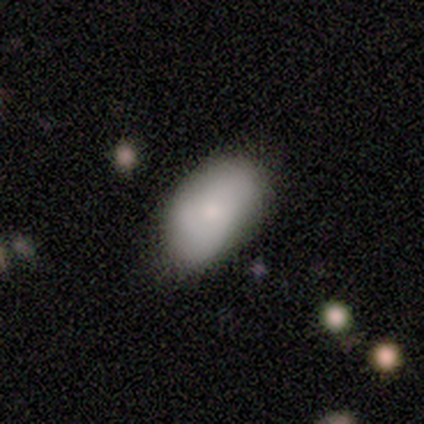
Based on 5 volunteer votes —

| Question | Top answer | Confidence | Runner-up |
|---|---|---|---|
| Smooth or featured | smooth | 60% | featured or disk (40%) |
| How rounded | in between | 100% | — |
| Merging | none | 100% | — |